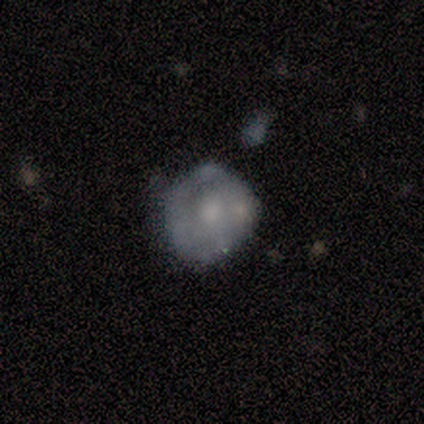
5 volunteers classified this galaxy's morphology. This appears to be a featured or disk galaxy (60%) with no bar (100%), no spiral arms (100%) and a moderate central bulge (33%, tied with small and none). Merging: none (60%).